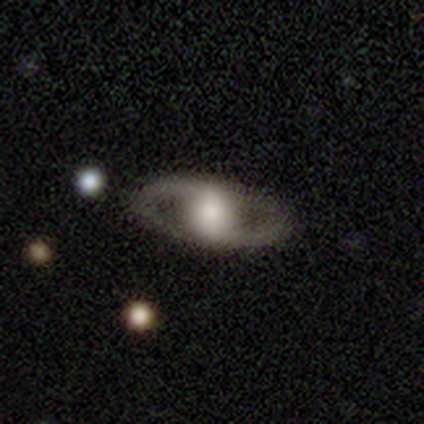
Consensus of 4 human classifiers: Volunteers were most divided on "spiral winding" (3-way tie): tight: 33%, medium: 33%, loose: 33%. More confident: smooth or featured — featured or disk (100%); edge-on disk — no (100%); spiral arm count — 2 (100%); bulge size — large (100%); merging — none (100%); spiral arms — yes (75%); bar — no (50%).